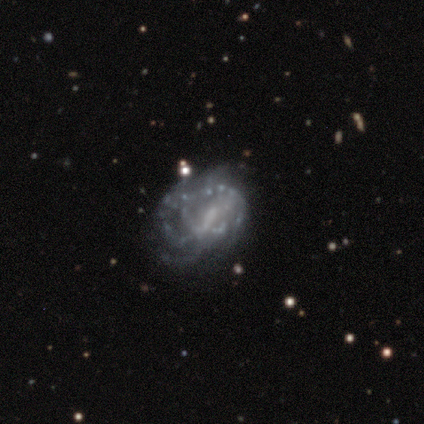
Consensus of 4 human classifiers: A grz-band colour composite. It shows a featured or disk galaxy (75%) with a weak bar (67%), medium (100%) spiral arms (100%) and no central bulge (100%). Merging: none (67%).